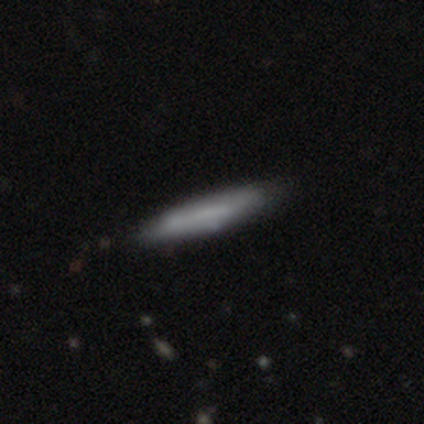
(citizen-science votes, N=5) A smooth galaxy with no disk features (60%) that is cigar-shaped (100%).

Vote fractions:
- Smooth or featured? smooth: 60% / featured or disk: 40% / star or artifact: 0%
- How rounded? cigar-shaped: 100% / round: 0% / in between: 0%
- Merging? none: 100% / minor disturbance: 0% / major disturbance: 0% / merger: 0%